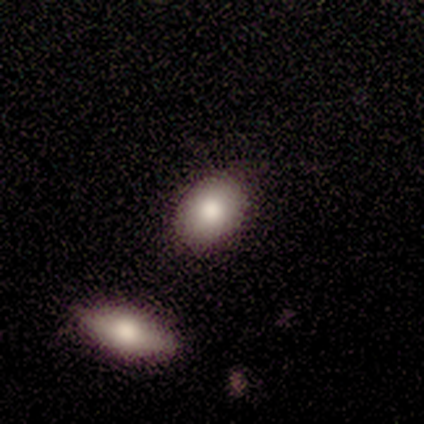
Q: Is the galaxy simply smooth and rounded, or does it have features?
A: smooth — 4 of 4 (100%).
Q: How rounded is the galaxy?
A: in between — 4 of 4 (100%).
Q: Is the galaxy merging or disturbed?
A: none — 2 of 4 (50%, tied with minor disturbance).